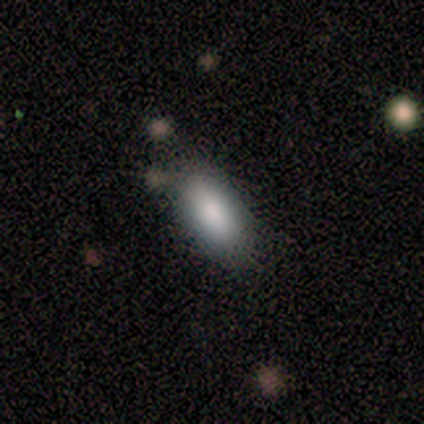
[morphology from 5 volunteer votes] smooth_or_featured: smooth (p=1.00)
how_rounded: in between (p=0.80) [alt: cigar-shaped p=0.20]
merging: none (p=0.80) [alt: minor disturbance p=0.20]